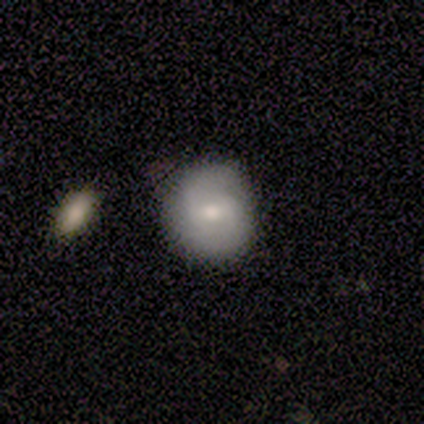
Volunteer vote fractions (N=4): Smooth or featured?
  - smooth: 75% *
  - featured or disk: 25%
  - star or artifact: 0%
How rounded?
  - round: 100% *
  - in between: 0%
  - cigar-shaped: 0%
Merging?
  - none: 50% *
  - major disturbance: 25%
  - merger: 25%
  - minor disturbance: 0%